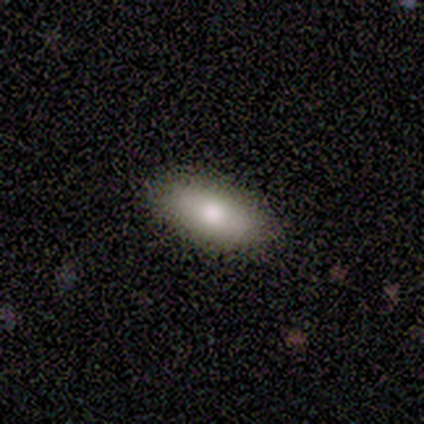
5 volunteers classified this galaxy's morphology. This is clearly a smooth galaxy (100%). How rounded: likely in between (60%). Merging: clearly none (100%).